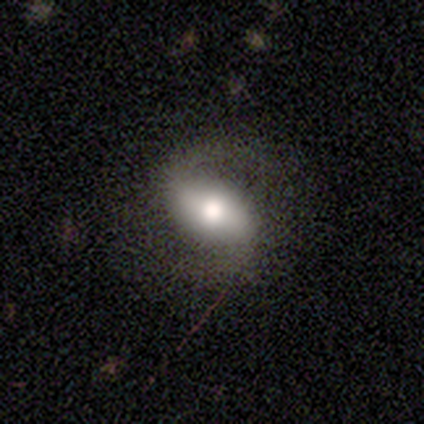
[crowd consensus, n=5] This appears to be a featured or disk galaxy (100%) with a strong bar (100%), 2 (100%) medium (75%) spiral arms (100%) and a moderate central bulge (75%). Merging: none (60%).